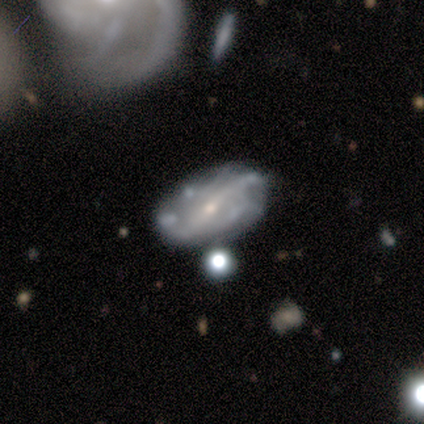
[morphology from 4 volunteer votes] Overall: featured or disk (75%). Edge-on disk: no (100%). Bar: strong (67%; weak 33%). Spiral arms: yes (100%). Spiral arm count: 2 (33%, tied with more than 4 and can't tell). Spiral winding: loose (67%; tight 33%). Bulge size: small (100%). Merging: none (100%).